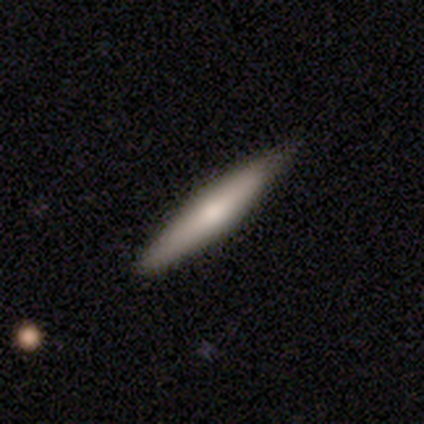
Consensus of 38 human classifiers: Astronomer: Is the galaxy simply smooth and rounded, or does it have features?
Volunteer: smooth — 50% (runner-up: featured or disk, 47%).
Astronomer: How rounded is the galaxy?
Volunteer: cigar-shaped — 95%.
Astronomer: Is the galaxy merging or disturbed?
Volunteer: none — 76%.